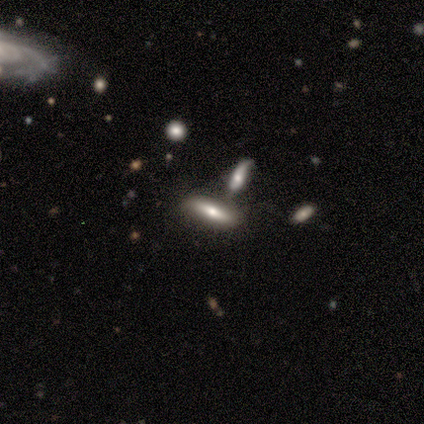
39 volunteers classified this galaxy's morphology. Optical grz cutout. It shows a smooth galaxy with no disk features (49%) that is cigar-shaped (63%). Merging: none (43%).